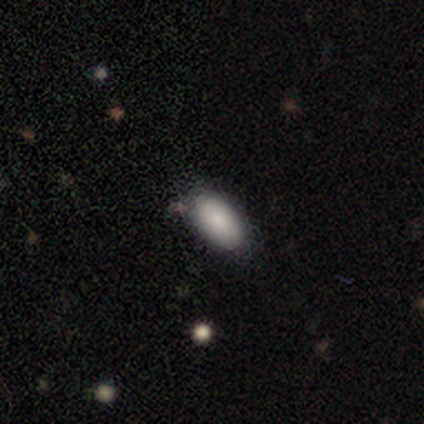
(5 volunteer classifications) Smooth or featured?
  - smooth: 80% *
  - star or artifact: 20%
  - featured or disk: 0%
How rounded?
  - in between: 100% *
  - round: 0%
  - cigar-shaped: 0%
Merging?
  - none: 100% *
  - minor disturbance: 0%
  - major disturbance: 0%
  - merger: 0%